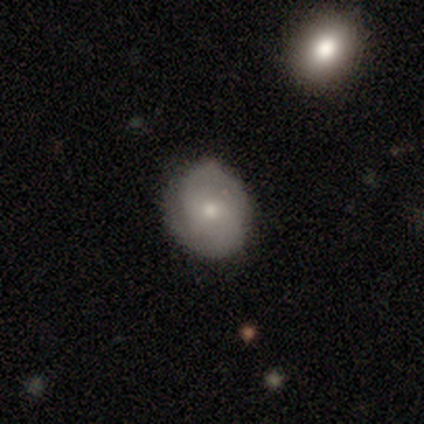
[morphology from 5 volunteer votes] This appears to be a featured or disk galaxy (60%) with no bar (100%), 2 (50%, tied with can't tell) medium (100%) spiral arms (67%) and a small central bulge (67%). Merging: none (75%).